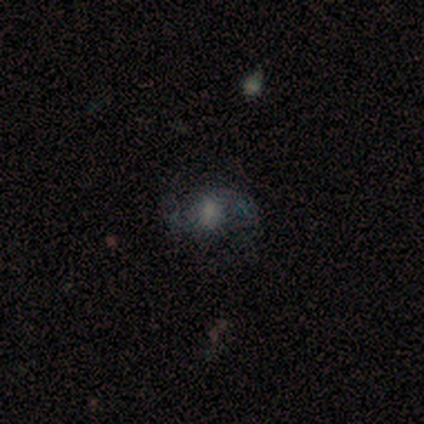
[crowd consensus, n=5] This is clearly a featured or disk galaxy (80%). It is clearly not viewed edge-on (100%). Bar: likely no (75%). Spiral arm pattern: possibly yes (50%, tied with no). Spiral arm count: clearly 2 (100%). Spiral winding: possibly medium (50%, tied with loose). Central bulge: possibly moderate (50%). Merging: possibly none (50%).